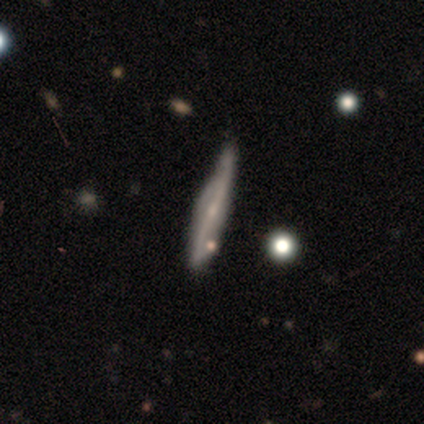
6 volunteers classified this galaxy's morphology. This is likely a featured or disk galaxy (67%). It is likely viewed edge-on (75%). Edge-on bulge: likely rounded (67%). Merging: likely none (67%).